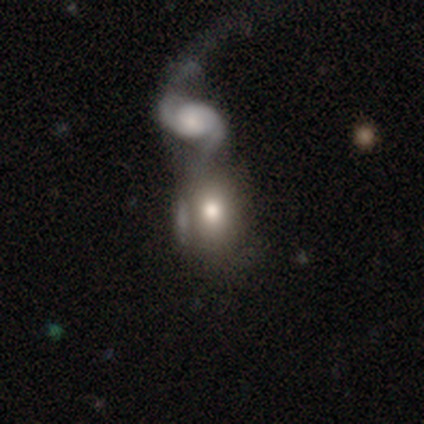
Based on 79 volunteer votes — This appears to be a smooth galaxy with no disk features (58%) that is in between round and cigar-shaped (67%). Merging: merger (54%).